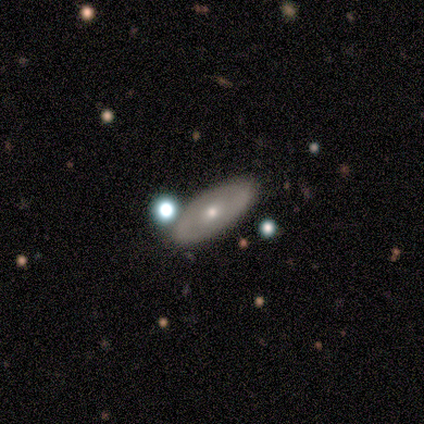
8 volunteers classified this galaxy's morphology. This is likely a featured or disk galaxy (62%). It is clearly not viewed edge-on (100%). Bar: clearly no (80%). Spiral arm pattern: clearly no (80%). Central bulge: likely moderate (60%). Merging: clearly none (88%).